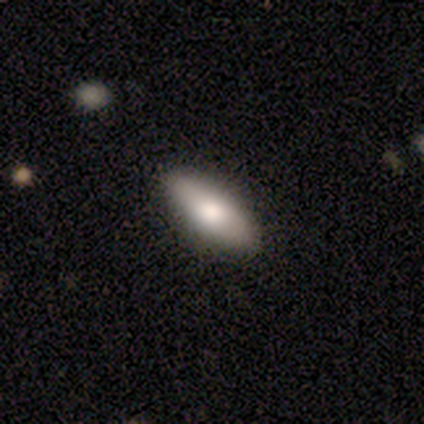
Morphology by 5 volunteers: smooth_or_featured: smooth (p=0.40) [tied with: featured or disk p=0.40]
how_rounded: in between (p=1.00)
merging: none (p=0.75) [alt: minor disturbance p=0.25]